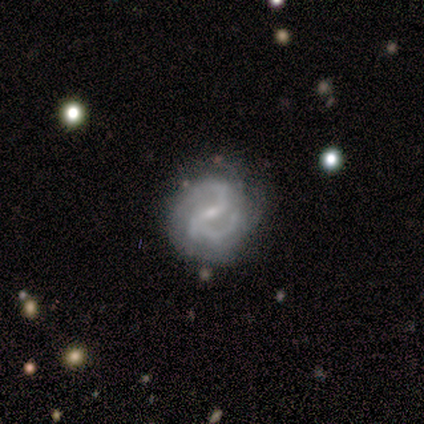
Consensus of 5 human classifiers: A featured or disk galaxy (80%) with a weak bar (75%), 2 (100%) medium (50%) spiral arms (100%) and a small central bulge (75%). Merging: none (40%, tied with minor disturbance).